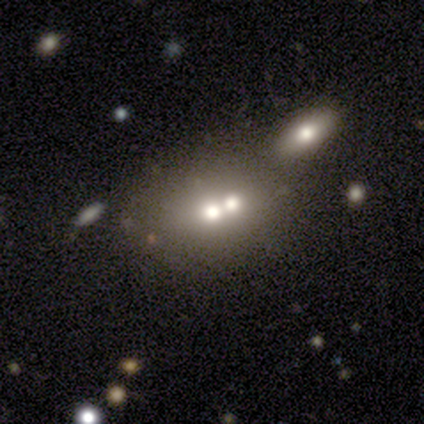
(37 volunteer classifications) Smooth or featured?
  - smooth: 59% *
  - featured or disk: 30%
  - star or artifact: 11%
How rounded?
  - in between: 59% *
  - round: 41%
  - cigar-shaped: 0%
Merging?
  - merger: 82% *
  - none: 9%
  - major disturbance: 6%
  - minor disturbance: 3%